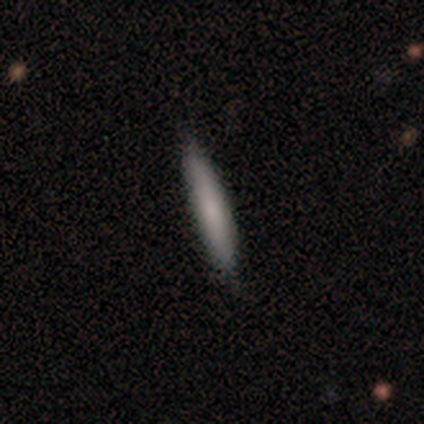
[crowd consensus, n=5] Smooth or featured?
  - smooth: 80% *
  - featured or disk: 20%
  - star or artifact: 0%
How rounded?
  - cigar-shaped: 100% *
  - round: 0%
  - in between: 0%
Merging?
  - none: 100% *
  - minor disturbance: 0%
  - major disturbance: 0%
  - merger: 0%